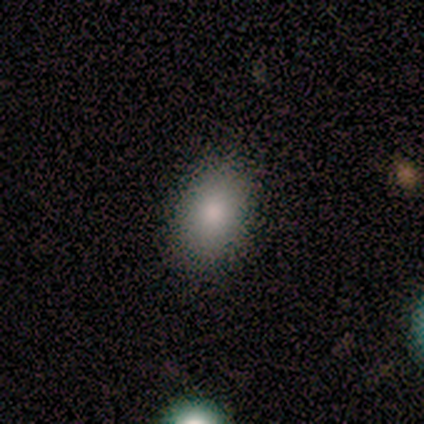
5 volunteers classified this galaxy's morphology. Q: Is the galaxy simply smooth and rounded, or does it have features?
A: smooth — 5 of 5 (100%).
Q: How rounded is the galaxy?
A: in between — 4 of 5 (80%).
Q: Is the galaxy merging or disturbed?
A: none — 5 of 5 (100%).